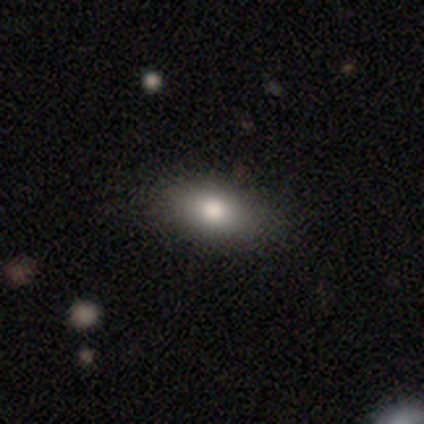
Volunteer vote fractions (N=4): This appears to be a smooth galaxy with no disk features (75%) that is in between round and cigar-shaped (100%). Merging: none (75%).